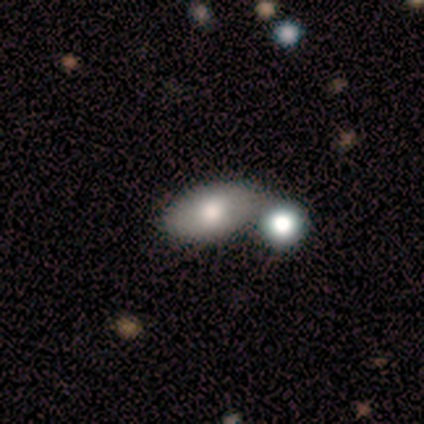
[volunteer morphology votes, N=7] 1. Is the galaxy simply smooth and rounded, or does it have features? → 100% smooth, 0% featured or disk, 0% star or artifact.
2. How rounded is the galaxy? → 100% in between, 0% round, 0% cigar-shaped.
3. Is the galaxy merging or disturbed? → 86% merger, 14% none, 0% minor disturbance, 0% major disturbance.